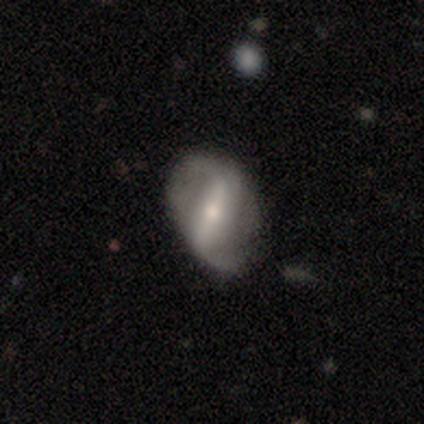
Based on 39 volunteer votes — smooth_or_featured: featured or disk (p=0.90) [alt: smooth p=0.08]
disk_edge_on: no (p=0.86) [alt: yes p=0.14]
bar: strong (p=0.70) [alt: weak p=0.27]
has_spiral_arms: yes (p=0.70) [alt: no p=0.30]
spiral_winding: loose (p=0.76) [alt: medium p=0.24]
spiral_arm_count: 2 (p=0.76) [alt: 1 p=0.14]
bulge_size: small (p=0.57) [alt: moderate p=0.40]
merging: none (p=0.74) [alt: minor disturbance p=0.21]